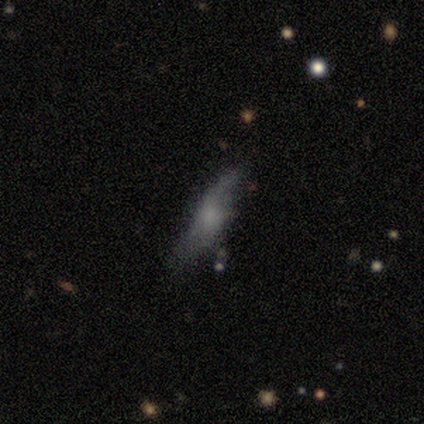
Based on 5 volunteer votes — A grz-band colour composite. It shows a smooth galaxy with no disk features (100%) that is cigar-shaped (100%). Merging: none (40%, tied with minor disturbance).